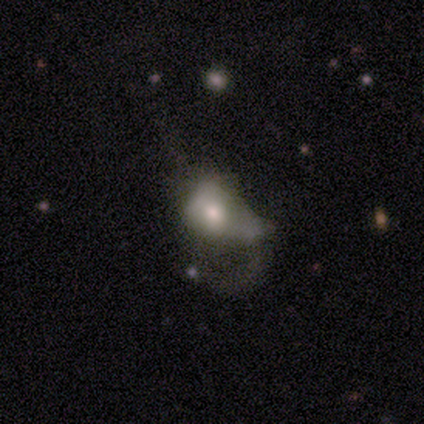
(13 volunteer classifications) smooth-or-featured: smooth: 46% | featured or disk: 38% | star or artifact: 15%
  how-rounded: in between: 83% | round: 17% | cigar-shaped: 0%
  merging: major disturbance: 64% | minor disturbance: 27% | merger: 9% | none: 0%